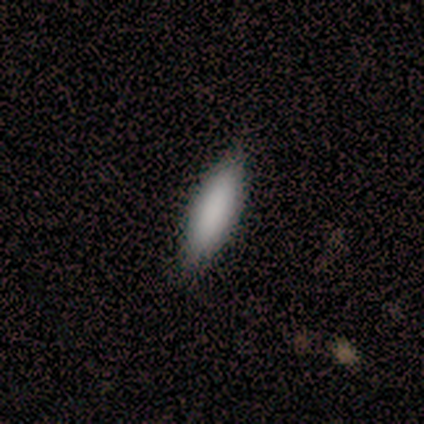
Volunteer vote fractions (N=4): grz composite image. It shows a smooth galaxy with no disk features (100%) that is in between round and cigar-shaped (75%). Merging: none (75%).